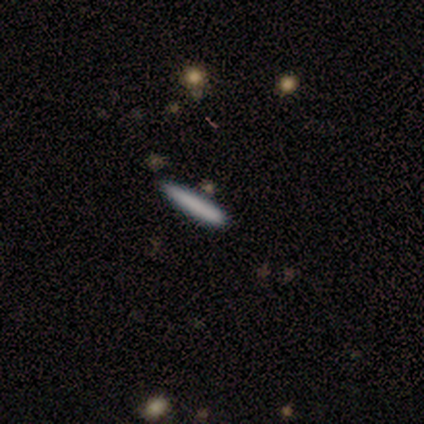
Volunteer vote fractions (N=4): Smooth or featured? smooth (100%)
How rounded? cigar-shaped (100%)
Merging? none (100%)